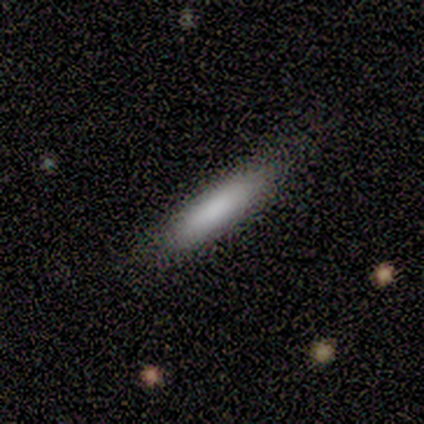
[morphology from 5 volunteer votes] A smooth galaxy with no disk features (100%) that is cigar-shaped (80%).

Vote fractions:
- Smooth or featured? smooth: 100% / featured or disk: 0% / star or artifact: 0%
- How rounded? cigar-shaped: 80% / in between: 20% / round: 0%
- Merging? none: 80% / minor disturbance: 20% / major disturbance: 0% / merger: 0%